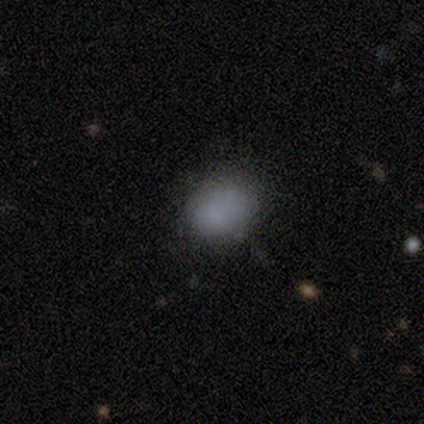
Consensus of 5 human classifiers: Smooth or featured: smooth — 100%
How rounded: round — 80% (in between — 20%)
Merging: none — 80% (minor disturbance — 20%)